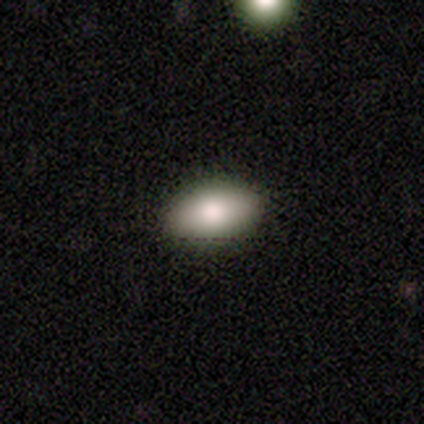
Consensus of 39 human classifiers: Volunteers were most divided on "merging": none: 85%, minor disturbance: 15%, major disturbance: 0%, merger: 0%. More confident: how rounded — in between (97%); smooth or featured — smooth (87%).